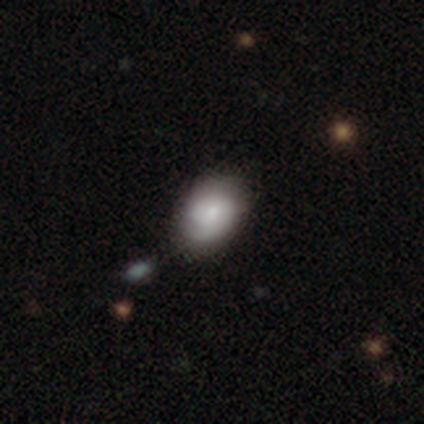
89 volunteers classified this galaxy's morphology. Smooth or featured?
  - smooth: 58% *
  - featured or disk: 35%
  - star or artifact: 7%
How rounded?
  - in between: 73% *
  - round: 27%
  - cigar-shaped: 0%
Merging?
  - none: 76% *
  - minor disturbance: 18%
  - major disturbance: 4%
  - merger: 2%